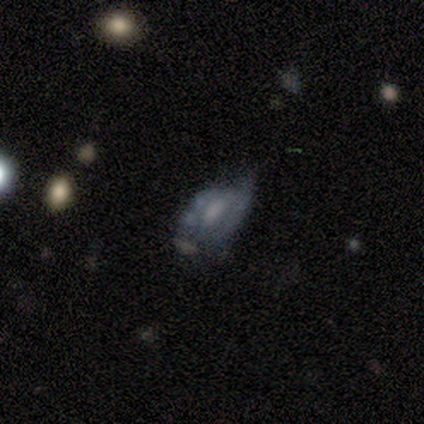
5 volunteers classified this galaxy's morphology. smooth_or_featured: featured or disk (p=0.80) [alt: smooth p=0.20]
disk_edge_on: no (p=1.00)
bar: weak (p=0.50) [tied with: no p=0.50]
has_spiral_arms: no (p=0.75) [alt: yes p=0.25]
bulge_size: moderate (p=0.50) [alt: small p=0.25]
merging: none (p=0.40) [tied with: major disturbance p=0.40]